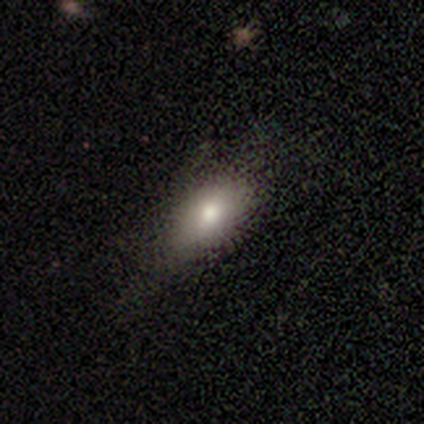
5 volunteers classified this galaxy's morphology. Smooth or featured? 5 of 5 (100%) said smooth. How rounded? 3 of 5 (60%) said in between. Merging? 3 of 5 (60%) said none.